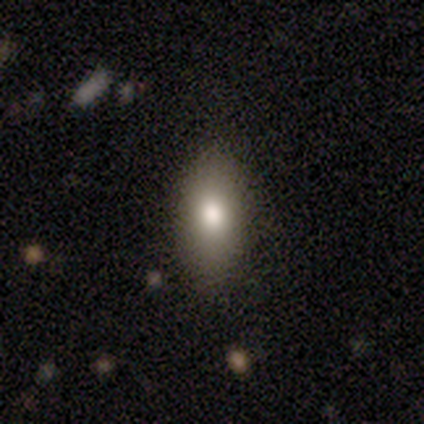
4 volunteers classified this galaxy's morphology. Smooth or featured?
  - smooth: 50% * (tied)
  - featured or disk: 50% * (tied)
  - star or artifact: 0%
How rounded?
  - in between: 100% *
  - round: 0%
  - cigar-shaped: 0%
Merging?
  - none: 100% *
  - minor disturbance: 0%
  - major disturbance: 0%
  - merger: 0%